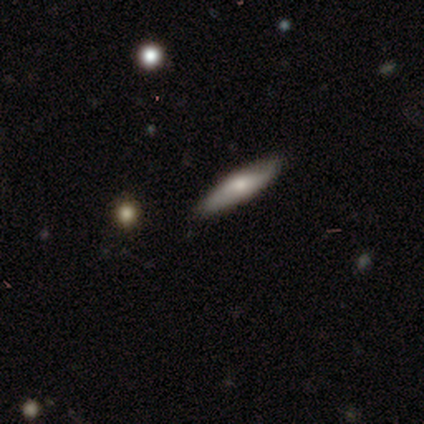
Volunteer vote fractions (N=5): featured or disk 80%, smooth 20%, star or artifact 0%. Down the decision tree: edge-on disk — yes (50%, tied with no); edge-on bulge — rounded (100%); merging — none (100%).